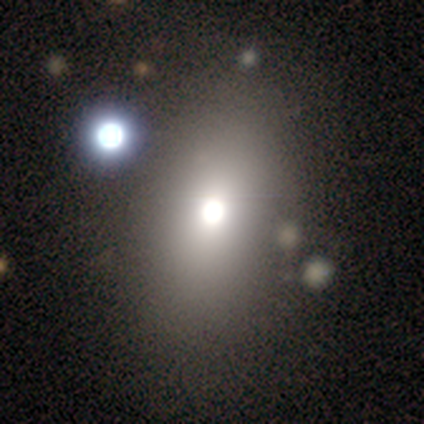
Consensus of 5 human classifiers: Smooth or featured? smooth (80%)
How rounded? in between (100%)
Merging? none (60%)